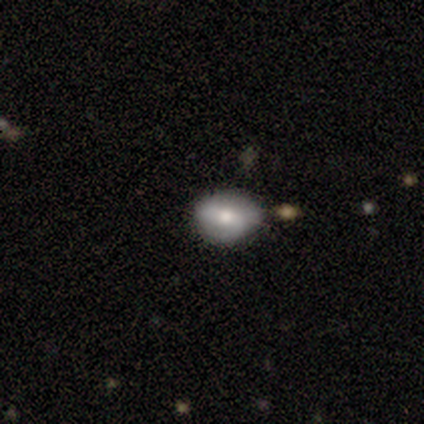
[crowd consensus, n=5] Q: Smooth or featured?
A: featured or disk (60%); runner-up: smooth (20%)
Q: Edge-on disk?
A: no (67%); runner-up: yes (33%)
Q: Bar?
A: no (100%)
Q: Spiral arms?
A: no (100%)
Q: Bulge size?
A: moderate (100%)
Q: Merging?
A: none (75%); runner-up: minor disturbance (25%)